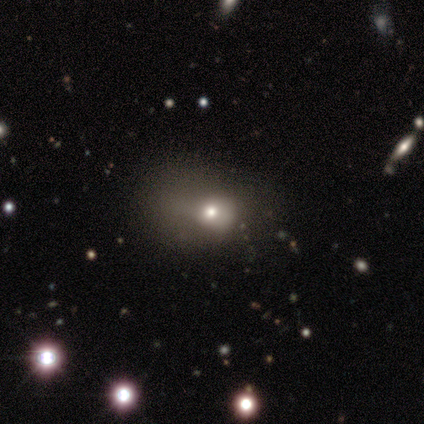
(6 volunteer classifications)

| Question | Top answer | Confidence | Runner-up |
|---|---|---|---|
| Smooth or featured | smooth | 50% | tied: star or artifact (50%) |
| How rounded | in between | 67% | round (33%) |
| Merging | none | 100% | — |